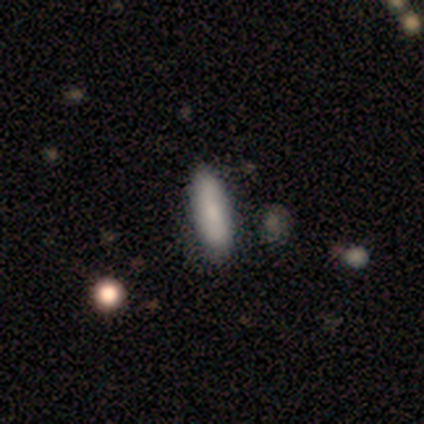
A smooth galaxy with no disk features (100%) that is in between round and cigar-shaped (50%, tied with cigar-shaped).

Vote fractions:
- Smooth or featured? smooth: 100% / featured or disk: 0% / star or artifact: 0%
- How rounded? in between: 50% (tied) / cigar-shaped: 50% (tied) / round: 0%
- Merging? none: 100% / minor disturbance: 0% / major disturbance: 0% / merger: 0%